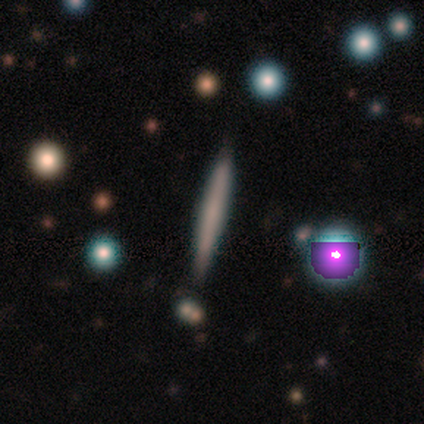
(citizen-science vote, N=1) Smooth or featured? 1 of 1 (100%) said smooth. How rounded? 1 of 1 (100%) said cigar-shaped. Merging? 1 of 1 (100%) said none.